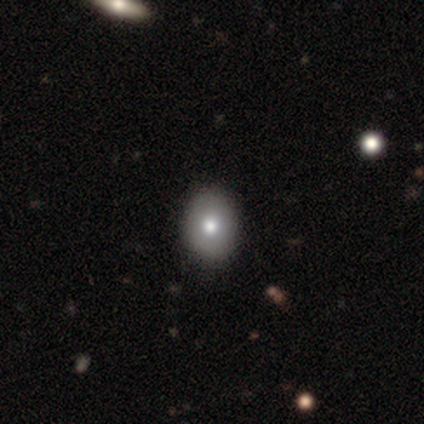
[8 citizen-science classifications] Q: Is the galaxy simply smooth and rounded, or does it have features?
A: smooth — 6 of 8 (75%).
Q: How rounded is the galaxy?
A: in between — 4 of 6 (67%).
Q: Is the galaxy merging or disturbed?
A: none — 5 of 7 (71%).